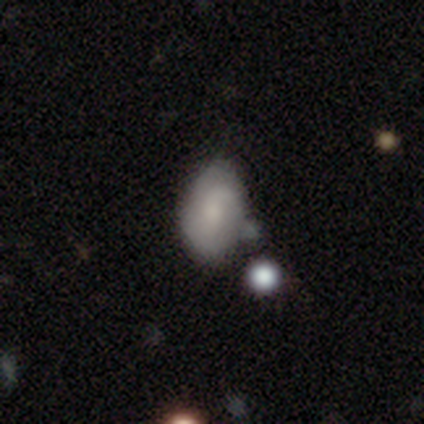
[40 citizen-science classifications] Morphology: type=smooth (60%); roundness=in between (88%); merging=none (58%).